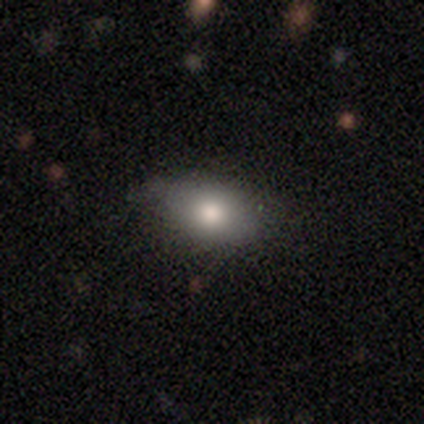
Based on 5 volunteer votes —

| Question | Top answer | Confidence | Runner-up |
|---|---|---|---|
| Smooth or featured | smooth | 80% | featured or disk (20%) |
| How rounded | round | 50% | tied: in between (50%) |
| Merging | none | 100% | — |